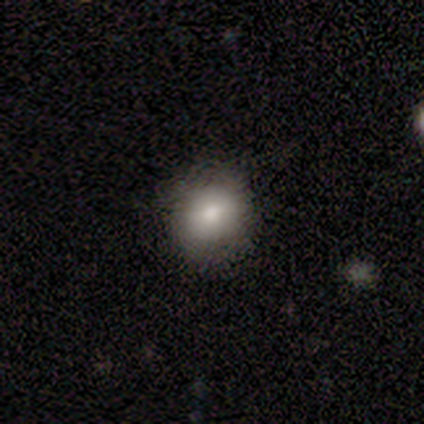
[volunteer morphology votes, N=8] This appears to be a smooth galaxy with no disk features (62%) that is round (100%). Merging: none (75%).